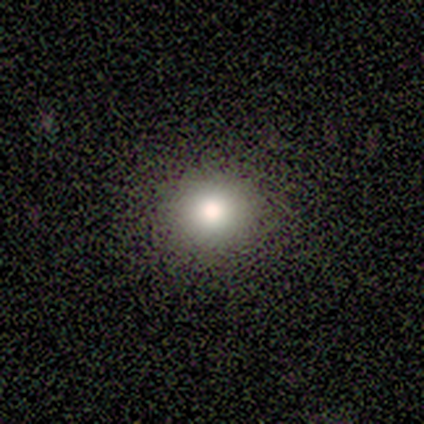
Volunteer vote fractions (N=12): Overall: smooth (42%; star or artifact 33%). How rounded: round (100%). Merging: none (88%).